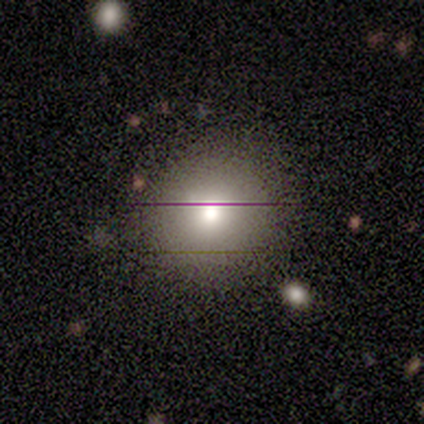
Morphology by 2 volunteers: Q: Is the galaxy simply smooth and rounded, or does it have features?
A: featured or disk — 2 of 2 (100%).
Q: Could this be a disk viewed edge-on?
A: no — 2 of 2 (100%).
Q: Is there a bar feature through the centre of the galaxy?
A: no — 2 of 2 (100%).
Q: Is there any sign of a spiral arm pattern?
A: no — 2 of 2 (100%).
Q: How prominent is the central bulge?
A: moderate — 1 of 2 (50%, tied with small).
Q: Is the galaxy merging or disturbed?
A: none — 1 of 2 (50%, tied with minor disturbance).